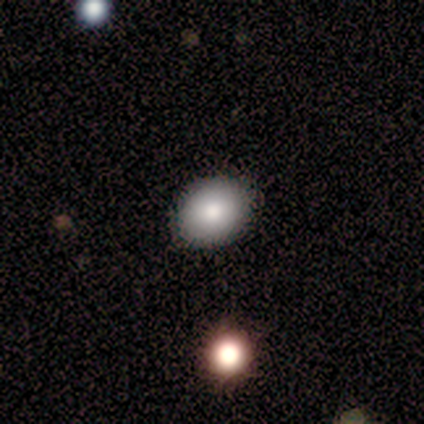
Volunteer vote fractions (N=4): Morphology: type=smooth (75%); roundness=round (67%); merging=none (100%).